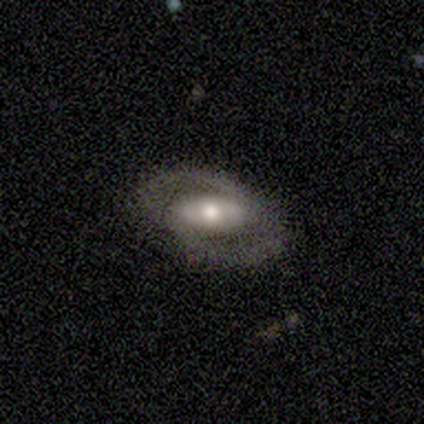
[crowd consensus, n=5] This appears to be a featured or disk galaxy (60%) with no bar (67%), 2 (100%) loose (67%) spiral arms (100%) and a moderate central bulge (67%). Merging: none (80%).